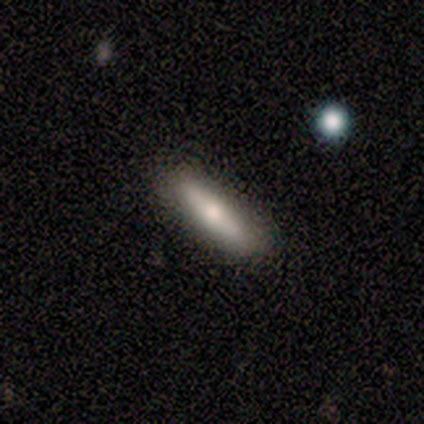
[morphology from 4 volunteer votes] Overall: smooth (100%). How rounded: cigar-shaped (75%). Merging: none (100%).